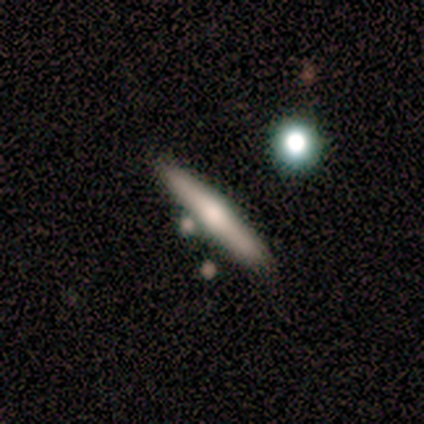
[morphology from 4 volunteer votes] This is possibly a smooth galaxy (50%, tied with featured or disk). How rounded: clearly cigar-shaped (100%). Merging: likely none (75%).